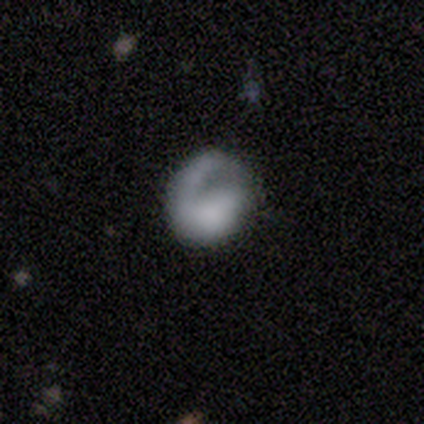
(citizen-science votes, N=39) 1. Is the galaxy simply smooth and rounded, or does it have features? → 59% featured or disk, 38% smooth, 3% star or artifact.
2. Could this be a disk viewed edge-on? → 100% no, 0% yes.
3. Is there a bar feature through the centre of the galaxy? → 91% no, 4% strong, 4% weak.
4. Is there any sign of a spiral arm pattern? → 83% yes, 17% no.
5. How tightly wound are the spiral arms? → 47% medium, 26% tight, 26% loose.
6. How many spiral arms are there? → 89% 1, 5% 2, 5% can't tell, 0% 3, 0% 4, 0% more than 4.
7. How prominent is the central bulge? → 52% none, 17% moderate, 13% small, 9% dominant, 9% large.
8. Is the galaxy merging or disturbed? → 53% none, 26% major disturbance, 21% minor disturbance, 0% merger.